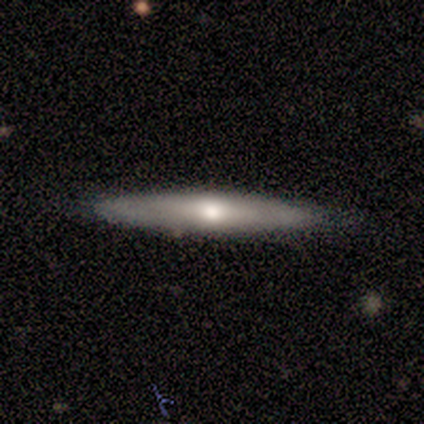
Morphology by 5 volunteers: Smooth or featured: featured or disk — 80% (smooth — 20%)
Edge-on disk: yes — 75% (no — 25%)
Edge-on bulge: rounded — 100%
Merging: none — 80% (minor disturbance — 20%)